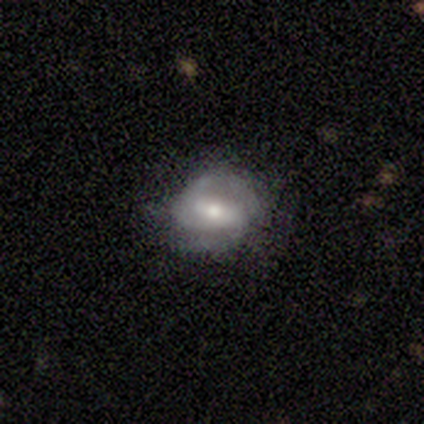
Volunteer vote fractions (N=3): featured or disk 67%, smooth 33%, star or artifact 0%. Down the decision tree: edge-on disk — no (100%); bar — weak (50%, tied with no); spiral arms — yes (100%); spiral arm count — 2 (100%); spiral winding — tight (50%, tied with loose); bulge size — large (50%, tied with moderate); merging — none (100%).